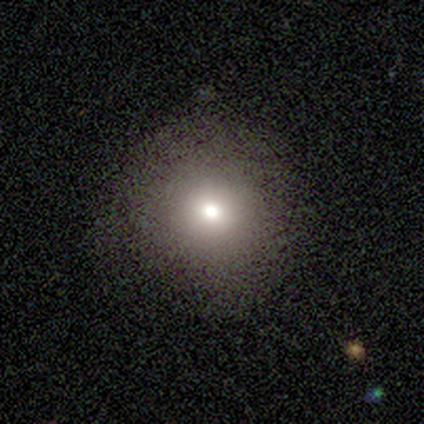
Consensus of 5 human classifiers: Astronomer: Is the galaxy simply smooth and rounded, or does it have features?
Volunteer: smooth — 100%.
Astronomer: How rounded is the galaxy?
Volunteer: round — 100%.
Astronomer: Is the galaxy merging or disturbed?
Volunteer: none — 60% (runner-up: minor disturbance, 40%).